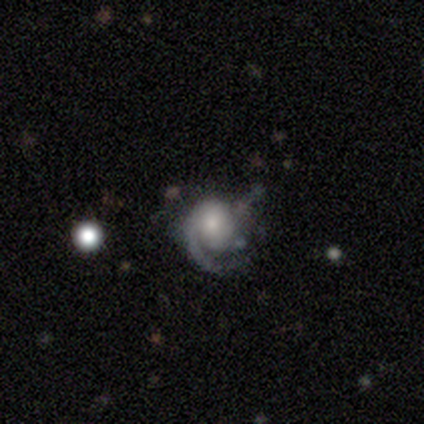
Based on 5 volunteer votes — Smooth or featured?
  - featured or disk: 80% *
  - smooth: 20%
  - star or artifact: 0%
Edge-on disk?
  - no: 100% *
  - yes: 0%
Bar?
  - no: 75% *
  - weak: 25%
  - strong: 0%
Spiral arms?
  - yes: 100% *
  - no: 0%
Spiral winding?
  - medium: 50% * (tied)
  - loose: 50% * (tied)
  - tight: 0%
Spiral arm count?
  - 1: 75% *
  - can't tell: 25%
  - 2: 0%
  - 3: 0%
  - 4: 0%
  - more than 4: 0%
Bulge size?
  - small: 50% *
  - large: 25%
  - none: 25%
  - dominant: 0%
  - moderate: 0%
Merging?
  - major disturbance: 40% *
  - none: 20%
  - minor disturbance: 20%
  - merger: 20%